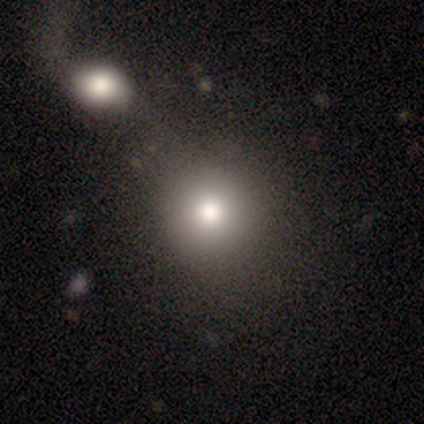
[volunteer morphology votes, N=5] This is clearly a smooth galaxy (80%). How rounded: clearly round (100%). Merging: clearly none (100%).